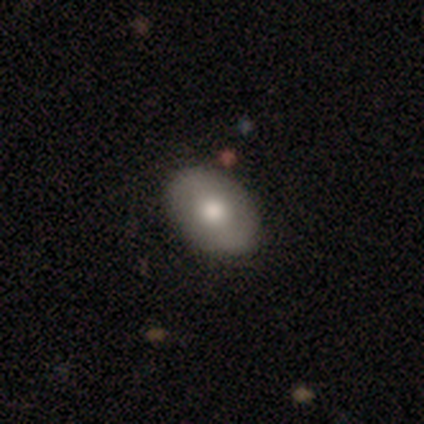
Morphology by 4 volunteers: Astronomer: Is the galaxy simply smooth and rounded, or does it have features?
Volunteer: smooth — 50%, tied with featured or disk at 50%.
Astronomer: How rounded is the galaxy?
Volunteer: in between — 100%.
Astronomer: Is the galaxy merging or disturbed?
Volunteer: none — 100%.